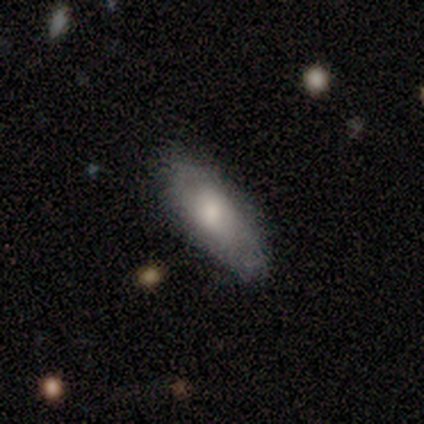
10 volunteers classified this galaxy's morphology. A smooth galaxy with no disk features (70%) that is in between round and cigar-shaped (71%).

Vote fractions:
- Smooth or featured? smooth: 70% / featured or disk: 30% / star or artifact: 0%
- How rounded? in between: 71% / cigar-shaped: 29% / round: 0%
- Merging? none: 60% / minor disturbance: 40% / major disturbance: 0% / merger: 0%